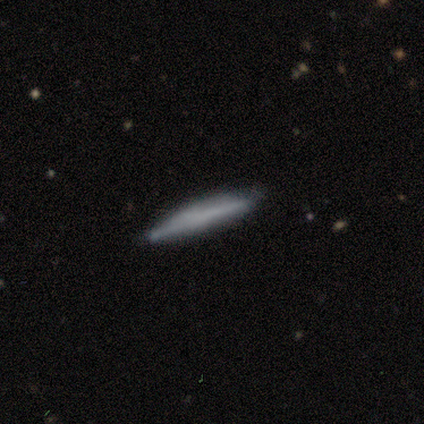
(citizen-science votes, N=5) smooth 80%, featured or disk 20%, star or artifact 0%. Down the decision tree: how rounded — cigar-shaped (100%); merging — none (100%).